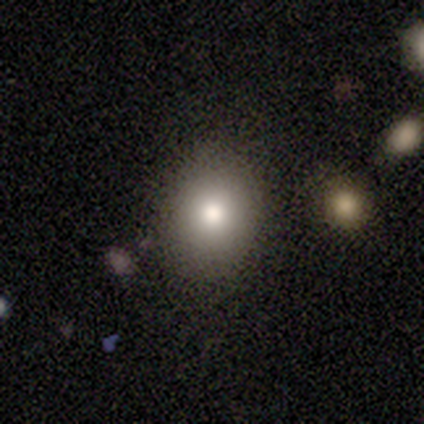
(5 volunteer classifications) This appears to be a smooth galaxy with no disk features (80%) that is round (50%, tied with in between). Merging: none (100%).